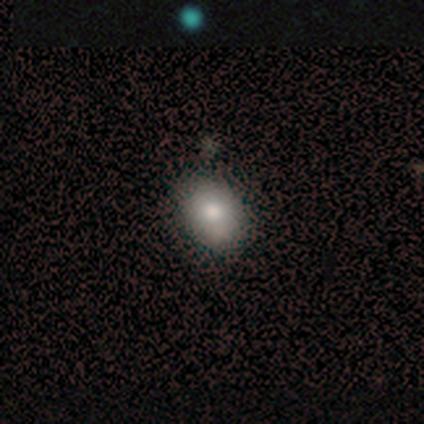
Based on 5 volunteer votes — Smooth or featured?
  - smooth: 100% *
  - featured or disk: 0%
  - star or artifact: 0%
How rounded?
  - in between: 60% *
  - round: 40%
  - cigar-shaped: 0%
Merging?
  - none: 80% *
  - major disturbance: 20%
  - minor disturbance: 0%
  - merger: 0%